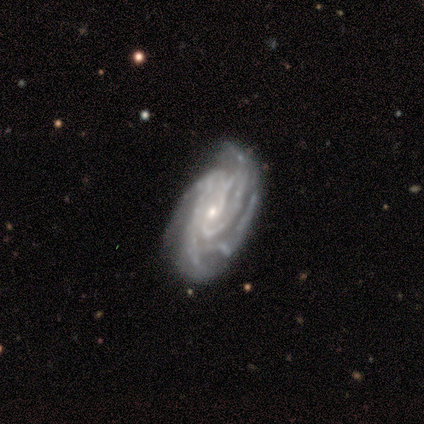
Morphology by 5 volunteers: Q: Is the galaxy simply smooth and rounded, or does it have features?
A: featured or disk — 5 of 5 (100%).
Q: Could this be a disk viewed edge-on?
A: no — 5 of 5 (100%).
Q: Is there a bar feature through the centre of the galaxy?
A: no — 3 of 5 (60%).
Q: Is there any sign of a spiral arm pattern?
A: yes — 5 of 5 (100%).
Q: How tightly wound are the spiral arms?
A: tight — 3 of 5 (60%).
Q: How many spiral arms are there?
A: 4 — 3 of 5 (60%).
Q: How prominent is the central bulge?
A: small — 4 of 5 (80%).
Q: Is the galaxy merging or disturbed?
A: none — 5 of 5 (100%).